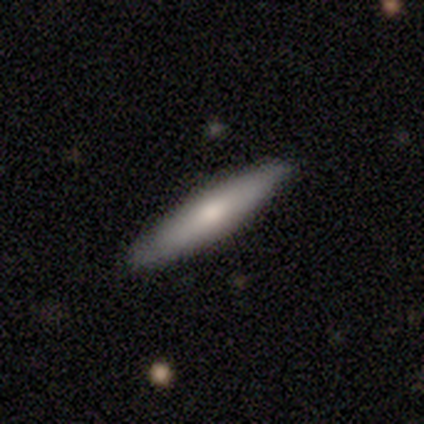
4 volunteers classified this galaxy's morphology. A smooth galaxy with no disk features (75%) that is cigar-shaped (100%). Merging: none (100%).